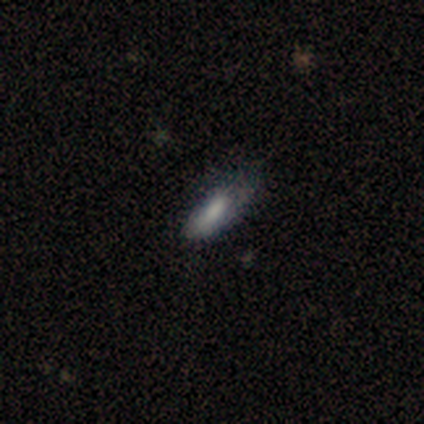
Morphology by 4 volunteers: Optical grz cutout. It shows a smooth galaxy with no disk features (100%) that is in between round and cigar-shaped (100%). Merging: none (50%).